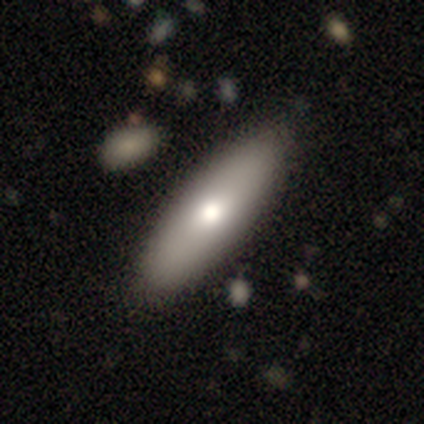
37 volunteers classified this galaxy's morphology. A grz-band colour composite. It shows a smooth galaxy with no disk features (84%) that is in between round and cigar-shaped (58%). Merging: none (68%).